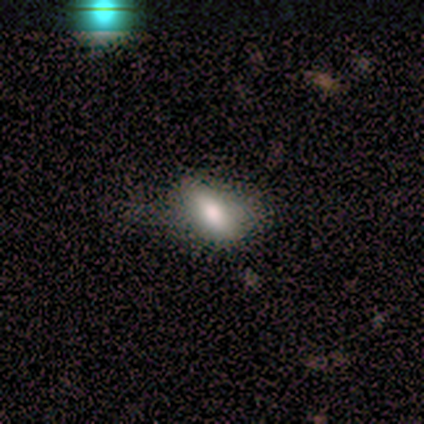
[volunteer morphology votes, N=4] smooth 75%, featured or disk 25%, star or artifact 0%. Down the decision tree: how rounded — in between (100%); merging — none (75%).